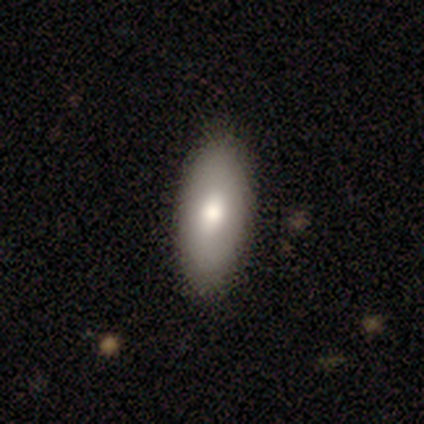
Q: Smooth or featured?
A: smooth (100%)
Q: How rounded?
A: in between (50%); tied with: cigar-shaped (50%)
Q: Merging?
A: none (50%); tied with: minor disturbance (50%)